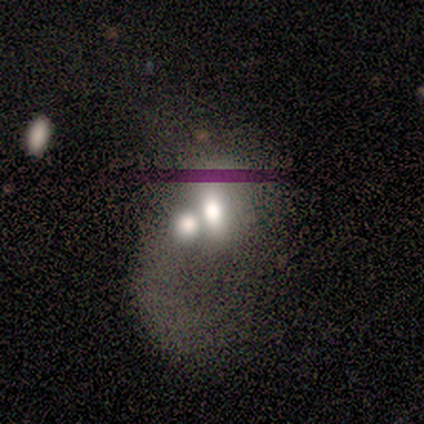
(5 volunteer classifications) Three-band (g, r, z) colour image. It shows a smooth galaxy with no disk features (80%) that is in between round and cigar-shaped (75%). Merging: merger (75%).